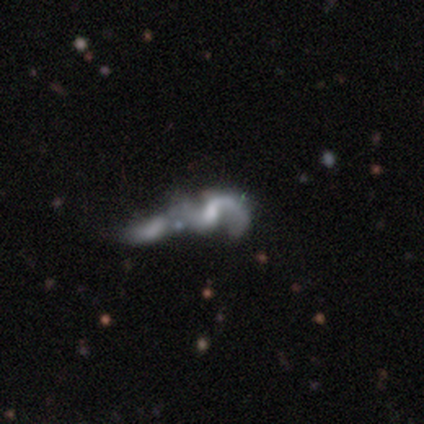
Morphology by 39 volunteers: Smooth or featured? featured or disk (72%)
Edge-on disk? no (96%)
Bar? no (59%)
Spiral arms? yes (78%)
Spiral winding? loose (57%)
Spiral arm count? 2 (86%)
Bulge size? none (44%)
Merging? merger (59%)